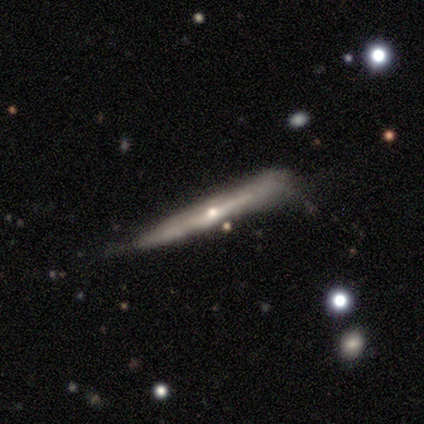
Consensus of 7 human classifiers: Morphology: type=featured or disk (86%); edge-on=yes (100%); edge-on bulge=rounded (100%); merging=none (43%, tied with minor disturbance).